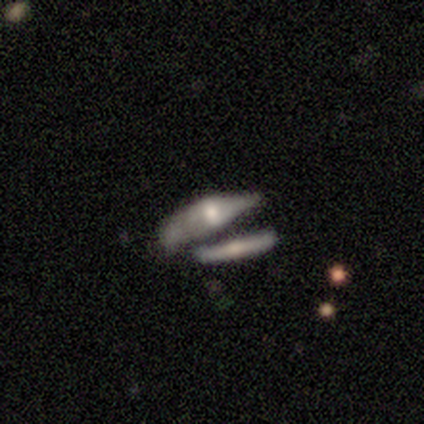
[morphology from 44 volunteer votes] Q: Smooth or featured?
A: featured or disk (59%); runner-up: smooth (41%)
Q: Edge-on disk?
A: yes (62%); runner-up: no (38%)
Q: Edge-on bulge?
A: rounded (75%); runner-up: boxy (19%)
Q: Merging?
A: merger (43%); runner-up: minor disturbance (25%)